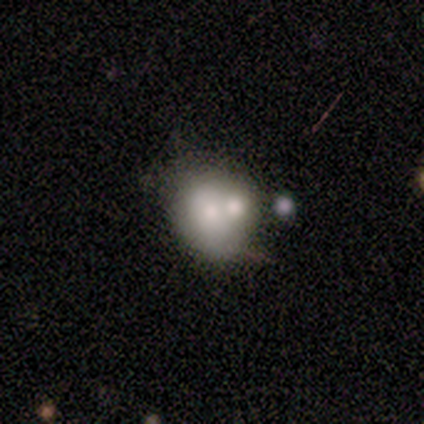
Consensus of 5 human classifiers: Smooth or featured: smooth — 60% (featured or disk — 20%)
How rounded: in between — 67% (round — 33%)
Merging: merger — 50% (none — 25%)